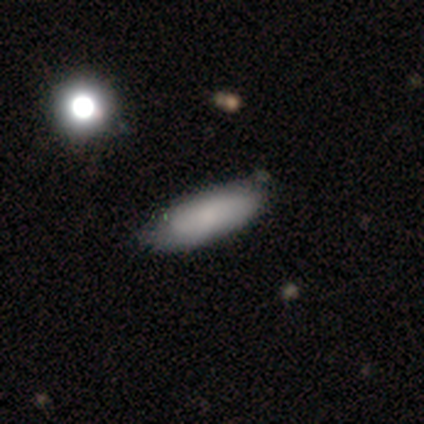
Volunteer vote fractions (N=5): A smooth galaxy with no disk features (60%) that is in between round and cigar-shaped (67%). Merging: none (60%).